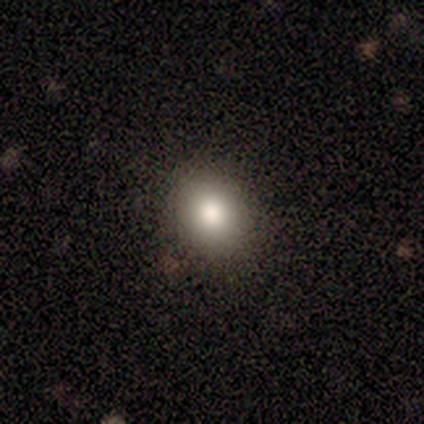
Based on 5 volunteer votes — Volunteers were most divided on "smooth or featured": smooth: 80%, featured or disk: 20%, star or artifact: 0%. More confident: how rounded — in between (100%); merging — none (100%).